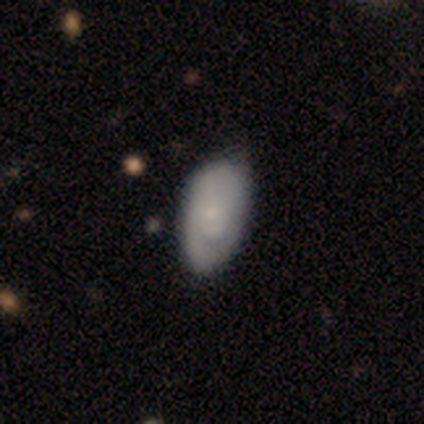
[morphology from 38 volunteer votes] Smooth or featured?
  - featured or disk: 55% *
  - smooth: 42%
  - star or artifact: 3%
Edge-on disk?
  - no: 95% *
  - yes: 5%
Bar?
  - no: 100% *
  - strong: 0%
  - weak: 0%
Spiral arms?
  - yes: 65% *
  - no: 35%
Spiral winding?
  - tight: 54% *
  - medium: 31%
  - loose: 15%
Spiral arm count?
  - 1: 46% * (tied)
  - can't tell: 46% * (tied)
  - 2: 8%
  - 3: 0%
  - 4: 0%
  - more than 4: 0%
Bulge size?
  - small: 75% *
  - moderate: 10%
  - none: 10%
  - large: 5%
  - dominant: 0%
Merging?
  - none: 51% *
  - minor disturbance: 8%
  - merger: 3%
  - major disturbance: 0%